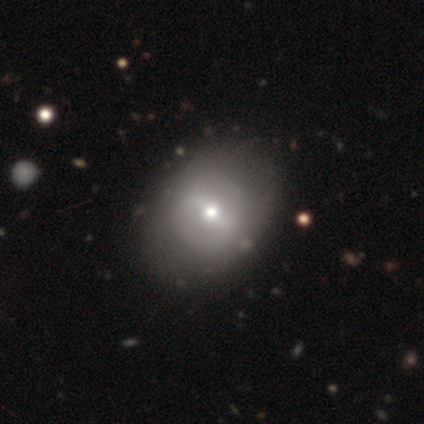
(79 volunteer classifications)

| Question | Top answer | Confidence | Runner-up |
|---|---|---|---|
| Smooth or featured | featured or disk | 51% | smooth (43%) |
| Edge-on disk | no | 98% | yes (2%) |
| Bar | weak | 44% | strong (33%) |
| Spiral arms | no | 85% | yes (15%) |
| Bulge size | moderate | 46% | small (44%) |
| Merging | none | 74% | minor disturbance (12%) |